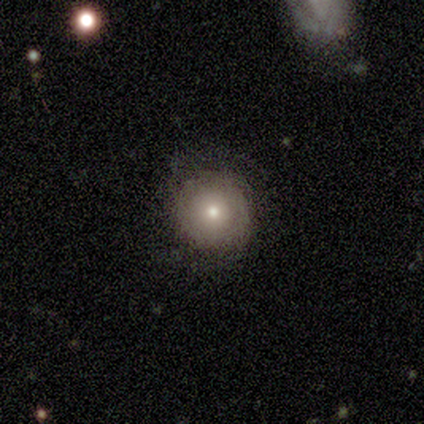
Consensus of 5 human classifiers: Overall: smooth (80%). How rounded: round (100%). Merging: none (80%).